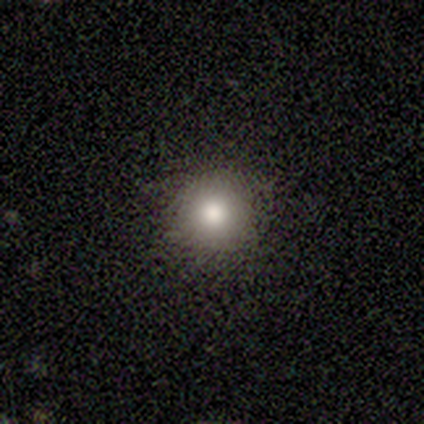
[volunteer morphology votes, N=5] Overall: smooth (80%). How rounded: round (100%). Merging: none (100%).